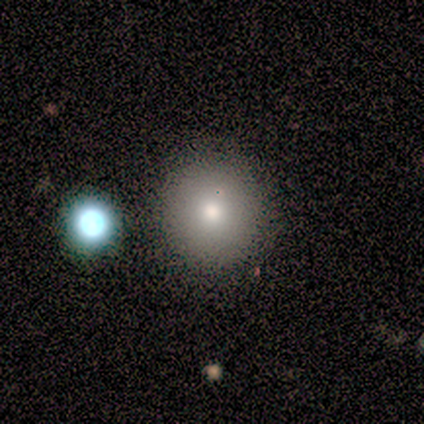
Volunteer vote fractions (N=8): Overall: smooth (100%). How rounded: round (88%). Merging: none (75%).